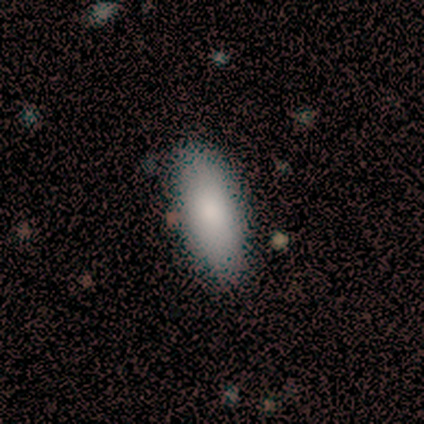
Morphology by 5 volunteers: Q: Smooth or featured?
A: smooth (60%); runner-up: featured or disk (40%)
Q: How rounded?
A: cigar-shaped (67%); runner-up: in between (33%)
Q: Merging?
A: none (80%); runner-up: minor disturbance (20%)